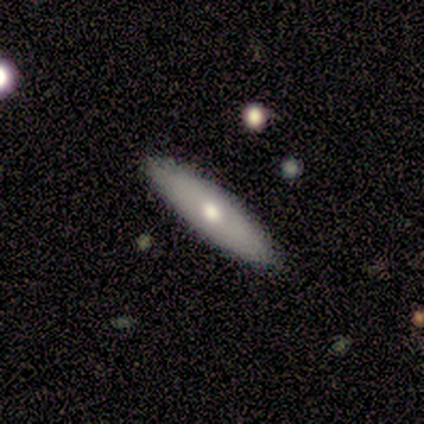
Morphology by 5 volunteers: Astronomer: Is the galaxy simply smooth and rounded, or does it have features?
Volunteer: smooth — 40%, tied with featured or disk at 40%.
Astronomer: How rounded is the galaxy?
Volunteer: cigar-shaped — 100%.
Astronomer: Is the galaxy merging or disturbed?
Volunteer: none — 100%.